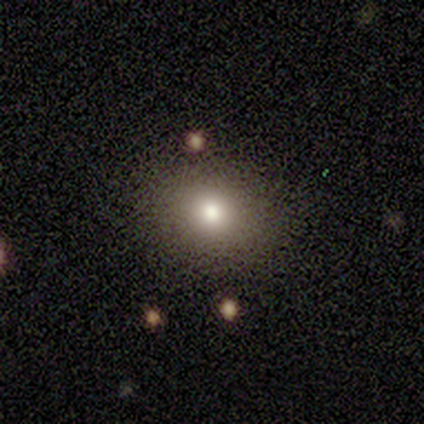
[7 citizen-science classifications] Volunteers were most divided on "how rounded": round: 60%, in between: 40%, cigar-shaped: 0%. More confident: smooth or featured — smooth (71%); merging — minor disturbance (60%).